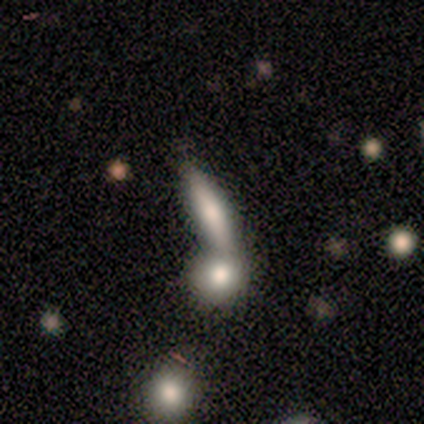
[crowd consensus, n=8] Smooth or featured? 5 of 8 (62%) said smooth. How rounded? 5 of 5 (100%) said cigar-shaped. Merging? 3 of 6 (50%, tied with merger) said none.